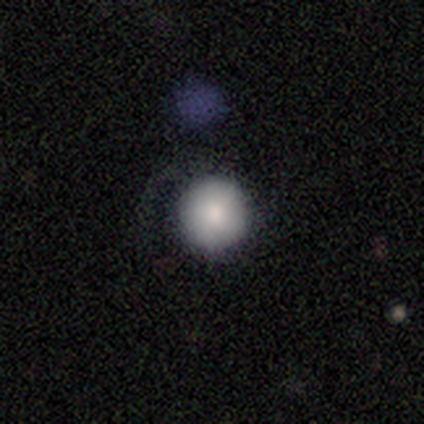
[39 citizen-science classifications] This is clearly a smooth galaxy (85%). How rounded: clearly round (97%). Merging: clearly none (81%).